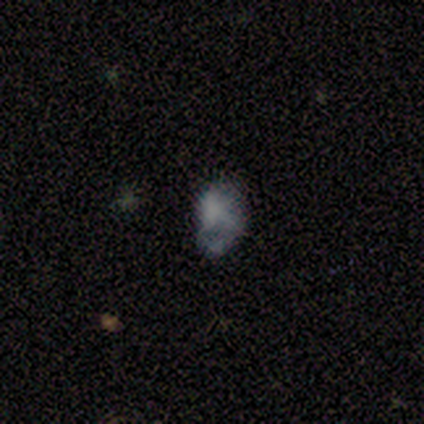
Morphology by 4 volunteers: A smooth galaxy with no disk features (75%) that is round (67%). Merging: none (100%).